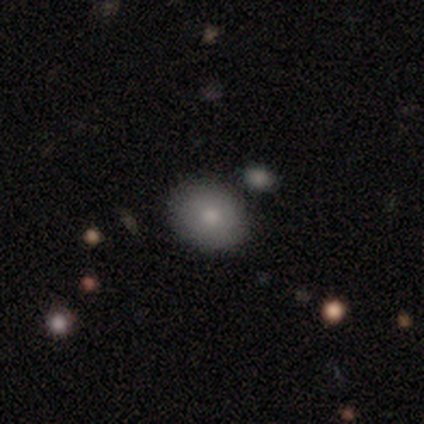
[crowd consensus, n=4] smooth_or_featured: smooth (p=0.75) [alt: featured or disk p=0.25]
how_rounded: round (p=0.67) [alt: in between p=0.33]
merging: none (p=0.75) [alt: minor disturbance p=0.25]